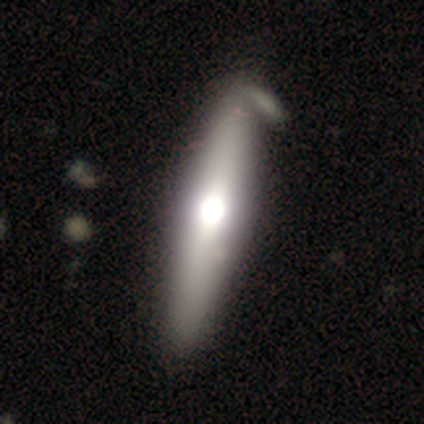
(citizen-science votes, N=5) smooth_or_featured: smooth (p=0.60) [alt: featured or disk p=0.20]
how_rounded: cigar-shaped (p=0.67) [alt: in between p=0.33]
merging: none (p=0.50) [alt: minor disturbance p=0.25]